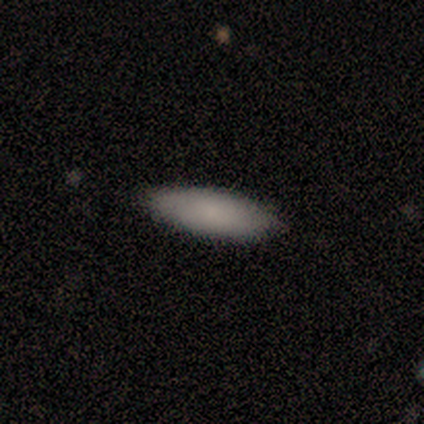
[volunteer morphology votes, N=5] This appears to be a smooth galaxy with no disk features (100%) that is in between round and cigar-shaped (80%). Merging: none (80%).